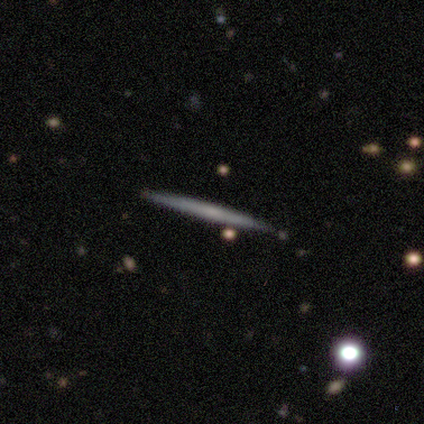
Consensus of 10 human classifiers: A featured or disk galaxy (60%) viewed edge-on (83%) with no central bulge (100%).

Vote fractions:
- Smooth or featured? featured or disk: 60% / smooth: 40% / star or artifact: 0%
- Edge-on disk? yes: 83% / no: 17%
- Edge-on bulge? none: 100% / boxy: 0% / rounded: 0%
- Merging? none: 90% / minor disturbance: 10% / major disturbance: 0% / merger: 0%